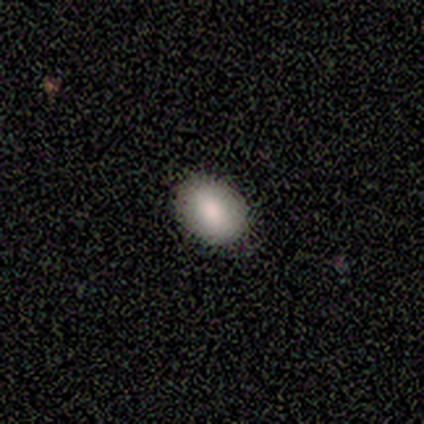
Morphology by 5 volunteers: Smooth or featured?
  - smooth: 80% *
  - featured or disk: 20%
  - star or artifact: 0%
How rounded?
  - round: 75% *
  - in between: 25%
  - cigar-shaped: 0%
Merging?
  - none: 100% *
  - minor disturbance: 0%
  - major disturbance: 0%
  - merger: 0%